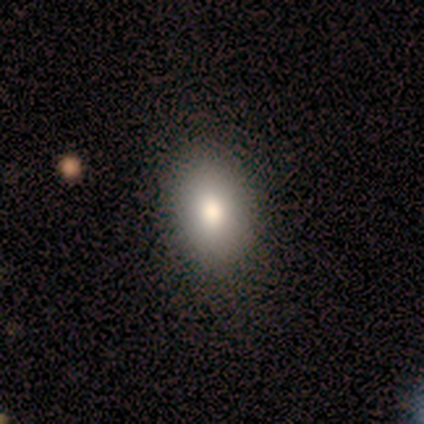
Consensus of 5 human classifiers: A smooth galaxy with no disk features (80%) that is in between round and cigar-shaped (75%). Merging: none (100%).